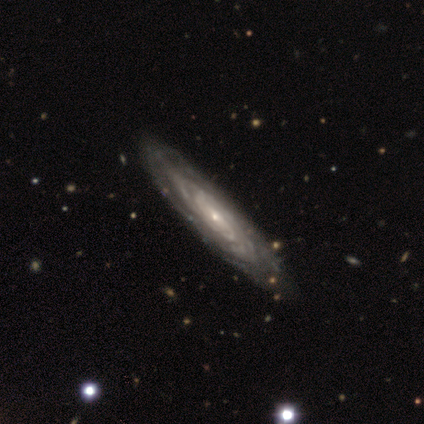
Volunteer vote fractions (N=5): Morphology: type=featured or disk (80%); edge-on=no (100%); bar=weak (50%, tied with no); spiral arms=yes (100%); winding=tight (100%); arm count=can't tell (75%); bulge=small (100%); merging=none (50%, tied with minor disturbance).